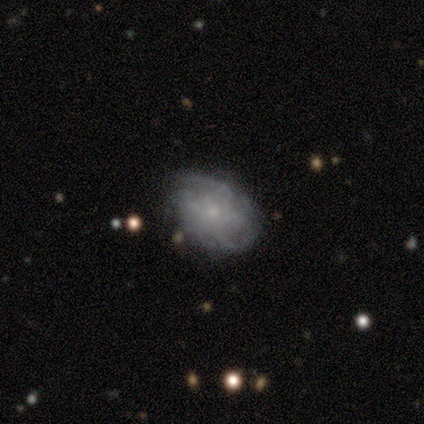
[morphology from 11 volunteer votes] This appears to be a featured or disk galaxy (64%) with no bar (100%), tight (40%, tied with loose) spiral arms (71%) and a small central bulge (100%). Merging: none (45%).